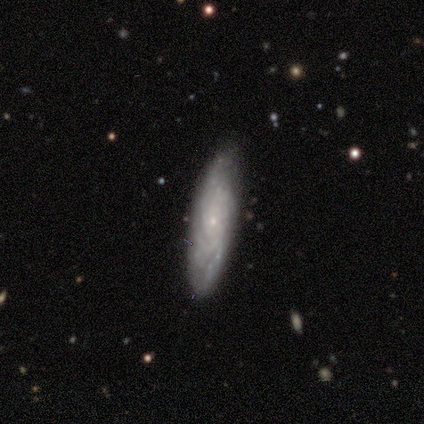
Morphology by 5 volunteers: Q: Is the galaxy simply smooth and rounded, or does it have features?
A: smooth — 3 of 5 (60%).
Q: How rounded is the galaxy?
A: cigar-shaped — 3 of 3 (100%).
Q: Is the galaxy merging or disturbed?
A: none — 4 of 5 (80%).